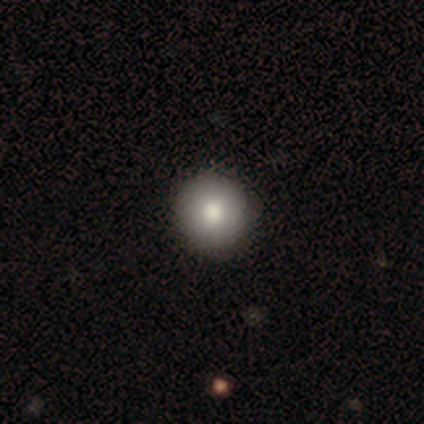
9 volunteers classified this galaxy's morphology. This is clearly a smooth galaxy (89%). How rounded: clearly round (100%). Merging: likely none (67%).